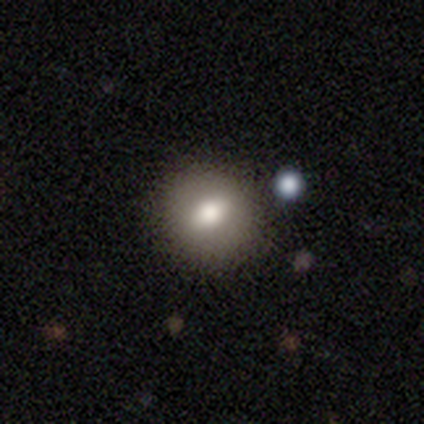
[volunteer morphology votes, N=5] smooth-or-featured: smooth: 60% | featured or disk: 40% | star or artifact: 0%
  how-rounded: round: 100% | in between: 0% | cigar-shaped: 0%
  merging: none: 100% | minor disturbance: 0% | major disturbance: 0% | merger: 0%